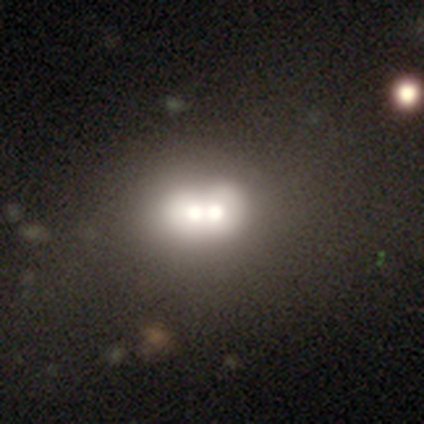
Volunteers were most divided on "how rounded": round: 55%, in between: 45%, cigar-shaped: 0%. More confident: merging — merger (79%); smooth or featured — smooth (60%).